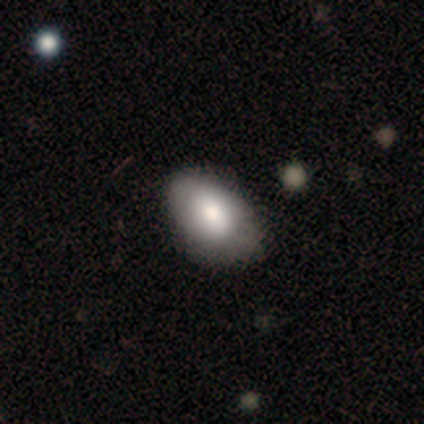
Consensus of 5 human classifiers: A smooth galaxy with no disk features (60%) that is in between round and cigar-shaped (100%).

Vote fractions:
- Smooth or featured? smooth: 60% / featured or disk: 40% / star or artifact: 0%
- How rounded? in between: 100% / round: 0% / cigar-shaped: 0%
- Merging? none: 100% / minor disturbance: 0% / major disturbance: 0% / merger: 0%